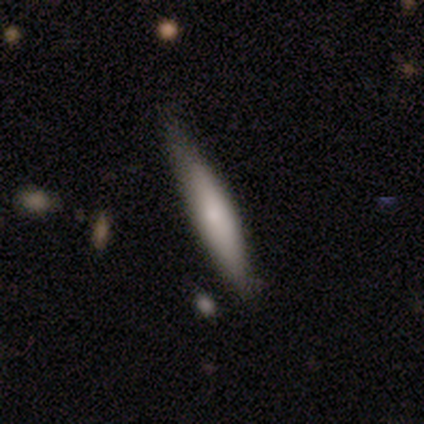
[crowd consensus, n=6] smooth-or-featured: smooth: 67% | featured or disk: 33% | star or artifact: 0%
  how-rounded: cigar-shaped: 75% | in between: 25% | round: 0%
  merging: none: 83% | minor disturbance: 17% | major disturbance: 0% | merger: 0%